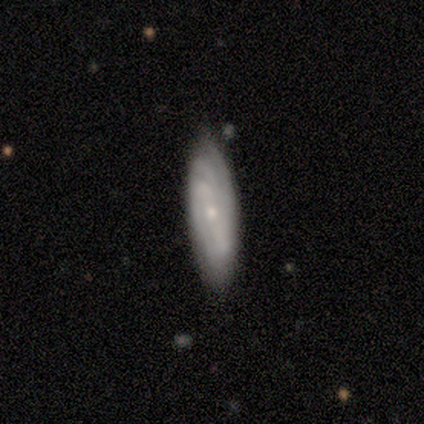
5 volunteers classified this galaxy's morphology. Volunteers were most divided on "spiral winding" (2-way tie): tight: 50%, medium: 50%, loose: 0%; "spiral arm count" (2-way tie): 3: 50%, can't tell: 50%, 1: 0%, 2: 0%, 4: 0%, more than 4: 0%. More confident: smooth or featured — featured or disk (100%); bar — no (100%); bulge size — small (100%); merging — none (100%); spiral arms — yes (67%); edge-on disk — no (60%).